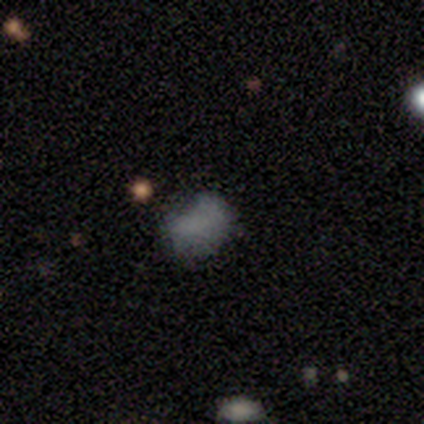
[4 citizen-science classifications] Smooth or featured? 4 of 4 (100%) said smooth. How rounded? 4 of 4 (100%) said in between. Merging? 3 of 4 (75%) said none.